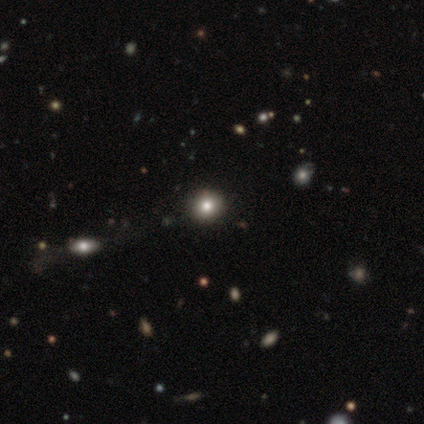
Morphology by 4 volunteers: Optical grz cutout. It shows a smooth galaxy with no disk features (50%, tied with star or artifact) that is round (50%, tied with in between). Merging: none (100%).